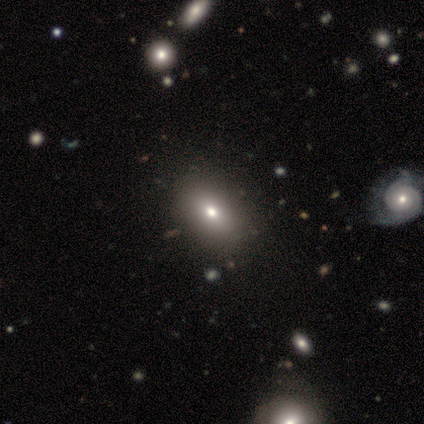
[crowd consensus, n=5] smooth-or-featured: smooth: 60% | star or artifact: 40% | featured or disk: 0%
  how-rounded: in between: 100% | round: 0% | cigar-shaped: 0%
  merging: none: 100% | minor disturbance: 0% | major disturbance: 0% | merger: 0%